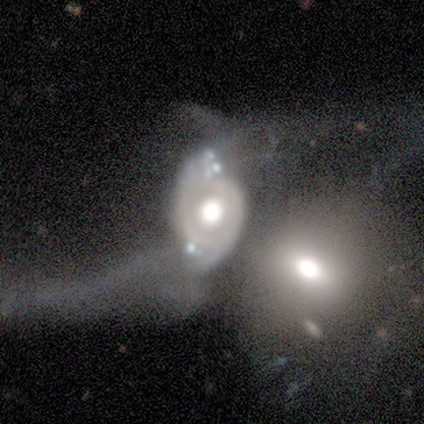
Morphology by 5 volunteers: Smooth or featured?
  - featured or disk: 80% *
  - smooth: 20%
  - star or artifact: 0%
Edge-on disk?
  - no: 100% *
  - yes: 0%
Bar?
  - no: 100% *
  - strong: 0%
  - weak: 0%
Spiral arms?
  - no: 75% *
  - yes: 25%
Bulge size?
  - large: 75% *
  - moderate: 25%
  - dominant: 0%
  - small: 0%
  - none: 0%
Merging?
  - merger: 80% *
  - major disturbance: 20%
  - none: 0%
  - minor disturbance: 0%